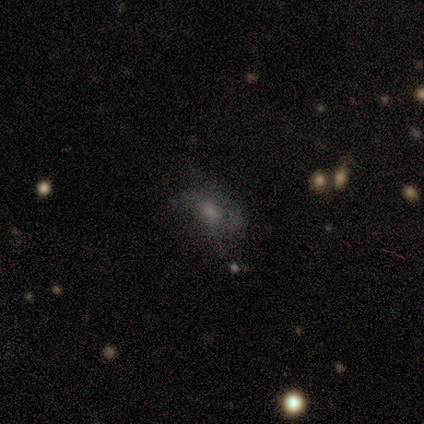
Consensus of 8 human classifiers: Smooth or featured? 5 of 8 (62%) said featured or disk. Edge-on disk? 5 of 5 (100%) said no. Bar? 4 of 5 (80%) said no. Spiral arms? 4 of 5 (80%) said no. Bulge size? 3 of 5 (60%) said moderate. Merging? 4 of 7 (57%) said none.